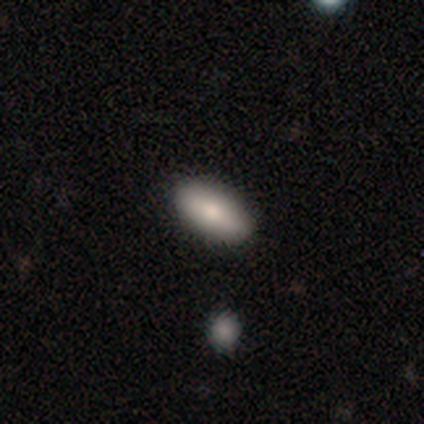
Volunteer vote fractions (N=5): A smooth galaxy with no disk features (80%) that is in between round and cigar-shaped (50%, tied with cigar-shaped).

Vote fractions:
- Smooth or featured? smooth: 80% / featured or disk: 20% / star or artifact: 0%
- How rounded? in between: 50% (tied) / cigar-shaped: 50% (tied) / round: 0%
- Merging? none: 100% / minor disturbance: 0% / major disturbance: 0% / merger: 0%